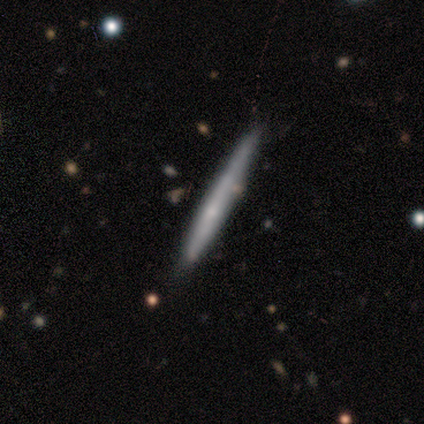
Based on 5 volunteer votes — Smooth or featured? featured or disk (60%)
Edge-on disk? yes (100%)
Edge-on bulge? none (67%)
Merging? none (60%)